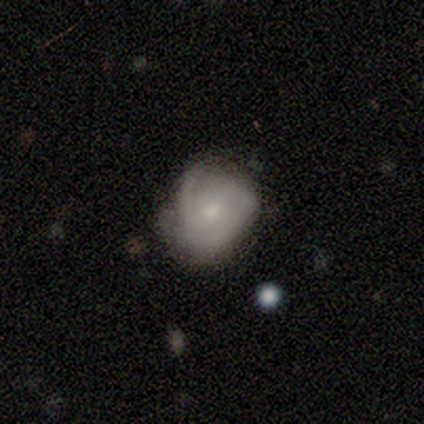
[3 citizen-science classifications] Q: Smooth or featured?
A: smooth (67%); runner-up: featured or disk (33%)
Q: How rounded?
A: round (100%)
Q: Merging?
A: none (67%); runner-up: minor disturbance (33%)